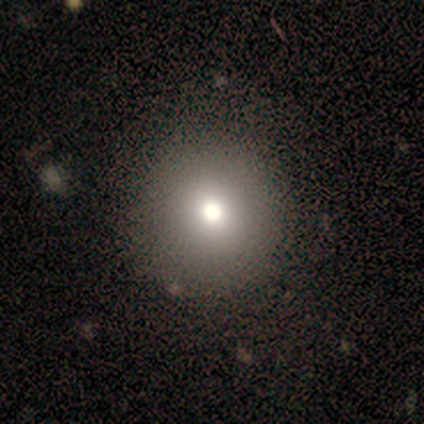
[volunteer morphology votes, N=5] This appears to be a smooth galaxy with no disk features (100%) that is round (80%). Merging: none (60%).